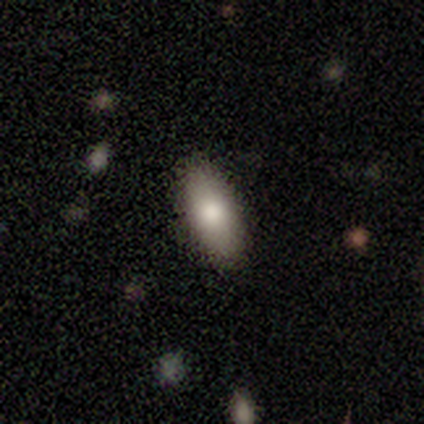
Overall: smooth (86%). How rounded: in between (100%). Merging: none (86%).